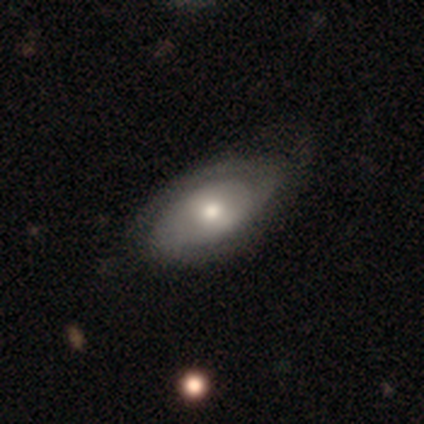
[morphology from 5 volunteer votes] type=featured or disk (60%); edge-on=no (100%); bar=no (67%); spiral arms=yes (67%); winding=tight (50%, tied with medium); arm count=2 (50%, tied with can't tell); bulge=moderate (67%); merging=none (80%).